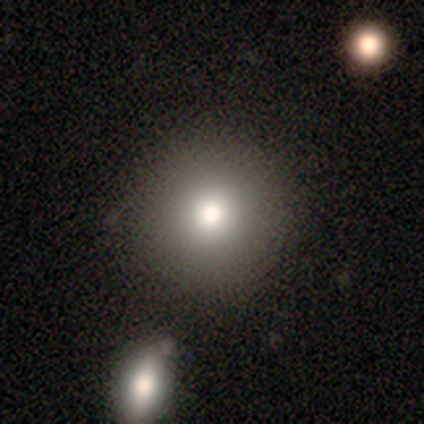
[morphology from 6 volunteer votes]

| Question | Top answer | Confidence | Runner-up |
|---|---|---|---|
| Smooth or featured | smooth | 100% | — |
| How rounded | round | 83% | in between (17%) |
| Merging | none | 100% | — |